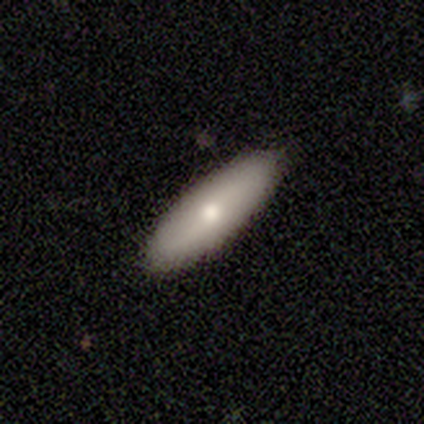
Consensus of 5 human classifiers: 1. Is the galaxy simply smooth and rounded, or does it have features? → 80% smooth, 20% star or artifact, 0% featured or disk.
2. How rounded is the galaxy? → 75% in between, 25% cigar-shaped, 0% round.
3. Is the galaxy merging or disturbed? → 100% none, 0% minor disturbance, 0% major disturbance, 0% merger.